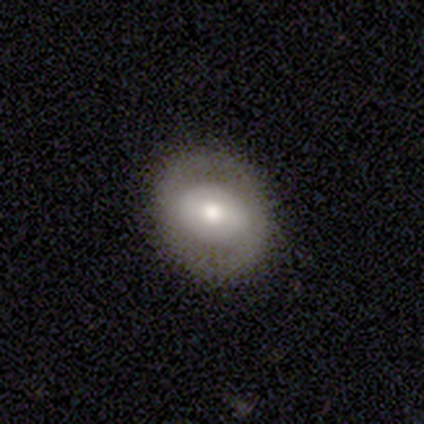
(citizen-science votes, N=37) A featured or disk galaxy (57%) with no bar (56%), no spiral arms (83%) and a moderate central bulge (61%).

Vote fractions:
- Smooth or featured? featured or disk: 57% / smooth: 38% / star or artifact: 5%
- Edge-on disk? no: 86% / yes: 14%
- Bar? no: 56% / strong: 22% / weak: 22%
- Spiral arms? no: 83% / yes: 17%
- Bulge size? moderate: 61% / large: 22% / small: 17% / dominant: 0% / none: 0%
- Merging? none: 91% / minor disturbance: 9% / major disturbance: 0% / merger: 0%